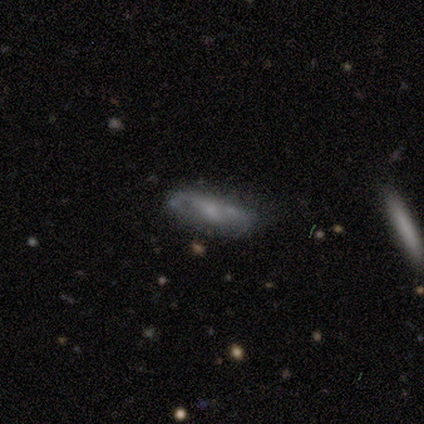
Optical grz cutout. It shows a featured or disk galaxy (80%) with a weak bar (100%), 2 (67%) tight (100%) spiral arms (100%) and a small central bulge (67%). Merging: none (60%).